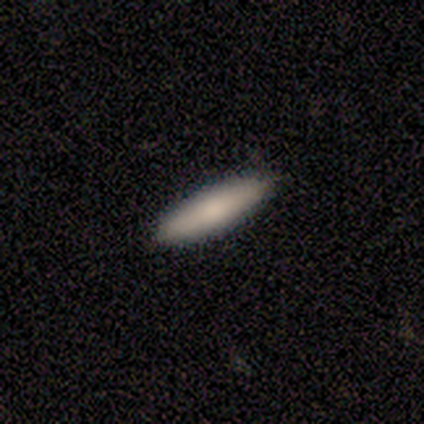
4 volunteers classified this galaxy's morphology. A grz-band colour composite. It shows a smooth galaxy with no disk features (75%) that is in between round and cigar-shaped (67%). Merging: none (100%).